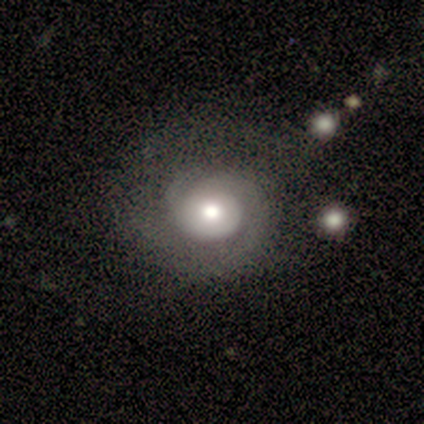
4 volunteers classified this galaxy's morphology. smooth-or-featured: featured or disk: 100% | smooth: 0% | star or artifact: 0%
  disk-edge-on: no: 100% | yes: 0%
    bar: no: 75% | strong: 25% | weak: 0%
    has-spiral-arms: yes: 100% | no: 0%
      spiral-winding: tight: 100% | medium: 0% | loose: 0%
      spiral-arm-count: 2: 50% | more than 4: 25% | can't tell: 25% | 1: 0% | 3: 0% | 4: 0%
    bulge-size: moderate: 75% | small: 25% | dominant: 0% | large: 0% | none: 0%
  merging: none: 50% (tied) | minor disturbance: 50% (tied) | major disturbance: 0% | merger: 0%